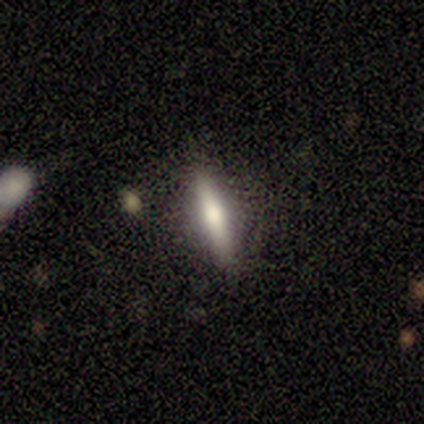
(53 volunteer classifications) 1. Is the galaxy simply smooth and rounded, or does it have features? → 55% smooth, 42% featured or disk, 4% star or artifact.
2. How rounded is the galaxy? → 86% cigar-shaped, 14% in between, 0% round.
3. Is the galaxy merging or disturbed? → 80% none, 14% minor disturbance, 4% major disturbance, 2% merger.